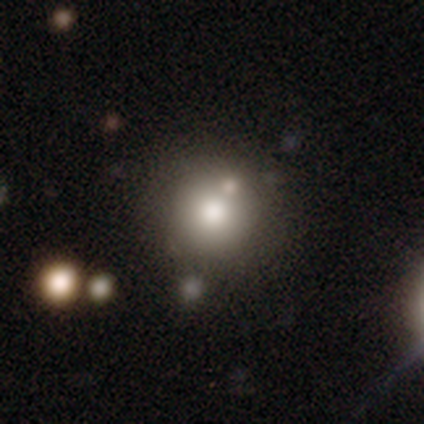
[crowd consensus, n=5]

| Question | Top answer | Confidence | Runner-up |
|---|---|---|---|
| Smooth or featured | smooth | 60% | featured or disk (20%) |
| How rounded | round | 100% | — |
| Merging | none | 75% | minor disturbance (25%) |